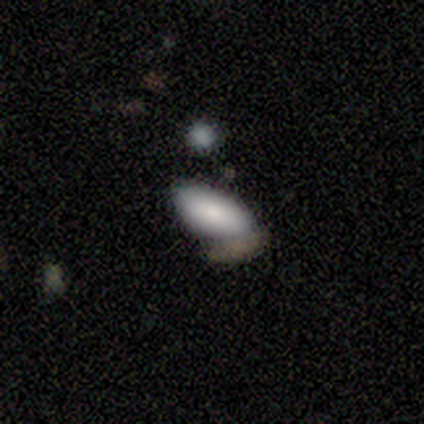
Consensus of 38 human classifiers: This appears to be a smooth galaxy with no disk features (82%) that is in between round and cigar-shaped (94%). Merging: none (43%).